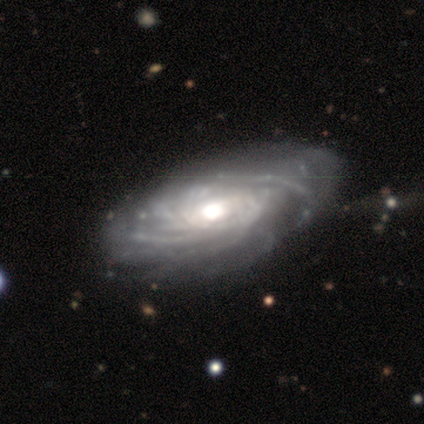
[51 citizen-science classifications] featured or disk 96%, star or artifact 4%, smooth 0%. Down the decision tree: edge-on disk — no (90%); bar — no (84%); spiral arms — yes (98%); spiral arm count — more than 4 (33%); spiral winding — tight (70%); bulge size — moderate (68%); merging — none (57%).